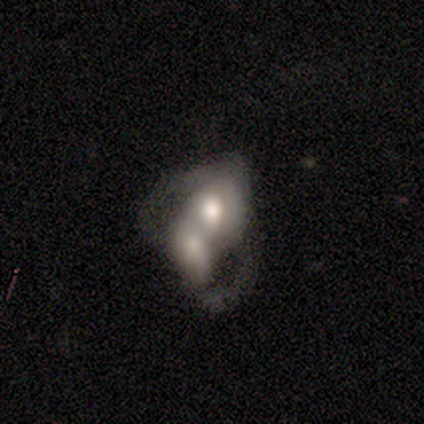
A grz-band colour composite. It shows a featured or disk galaxy (50%) with no bar (88%), no spiral arms (60%) and a moderate central bulge (62%). Merging: merger (86%).